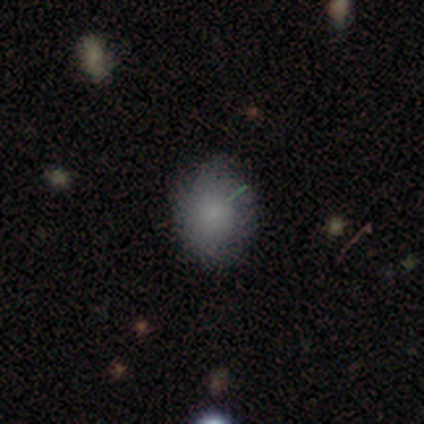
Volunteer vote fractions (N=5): This appears to be a smooth galaxy with no disk features (80%) that is in between round and cigar-shaped (75%). Merging: none (80%).